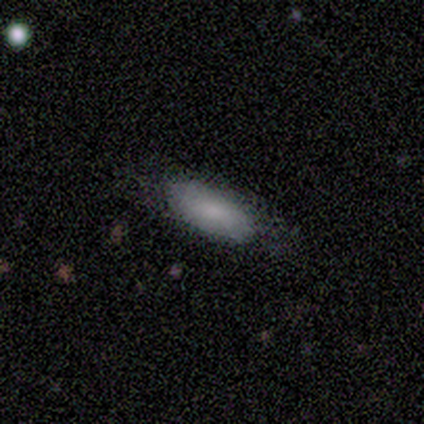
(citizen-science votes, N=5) smooth-or-featured: smooth: 80% | featured or disk: 20% | star or artifact: 0%
  how-rounded: in between: 100% | round: 0% | cigar-shaped: 0%
  merging: none: 80% | minor disturbance: 20% | major disturbance: 0% | merger: 0%